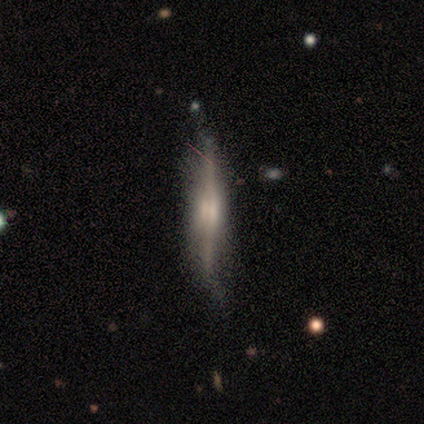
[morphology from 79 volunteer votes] A featured or disk galaxy (73%) viewed edge-on (95%) with a boxy central bulge (51%).

Vote fractions:
- Smooth or featured? featured or disk: 73% / smooth: 23% / star or artifact: 4%
- Edge-on disk? yes: 95% / no: 5%
- Edge-on bulge? boxy: 51% / rounded: 42% / none: 7%
- Merging? none: 32% / minor disturbance: 24% / merger: 3% / major disturbance: 0%